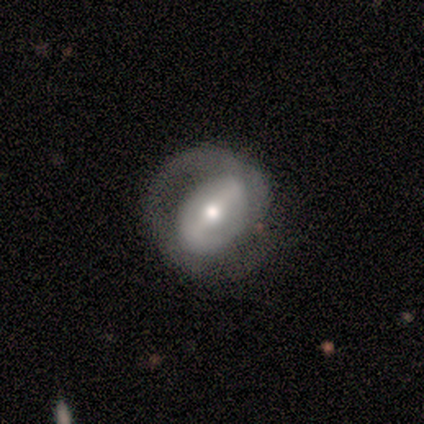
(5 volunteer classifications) smooth_or_featured: featured or disk (p=1.00)
disk_edge_on: no (p=1.00)
bar: strong (p=0.80) [alt: weak p=0.20]
has_spiral_arms: no (p=0.60) [alt: yes p=0.40]
bulge_size: moderate (p=0.40) [tied with: small p=0.40]
merging: none (p=0.40) [tied with: minor disturbance p=0.40]